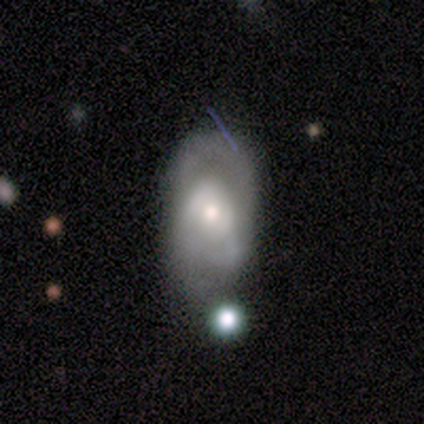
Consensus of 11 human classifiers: Smooth or featured? featured or disk (100%)
Edge-on disk? no (100%)
Bar? no (73%)
Spiral arms? yes (73%)
Spiral winding? medium (75%)
Spiral arm count? 2 (88%)
Bulge size? small (73%)
Merging? none (55%)